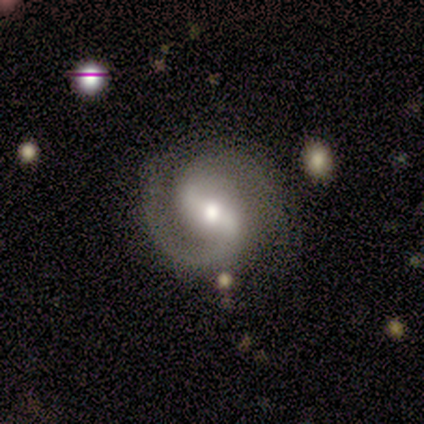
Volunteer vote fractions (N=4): Volunteers were most divided on "bar" (2-way tie): strong: 50%, weak: 50%, no: 0%; "spiral arm count" (2-way tie): 1: 50%, 2: 50%, 3: 0%, 4: 0%, more than 4: 0%, can't tell: 0%. More confident: smooth or featured — featured or disk (100%); edge-on disk — no (100%); spiral arms — yes (100%); bulge size — moderate (100%); spiral winding — medium (75%); merging — none (50%).